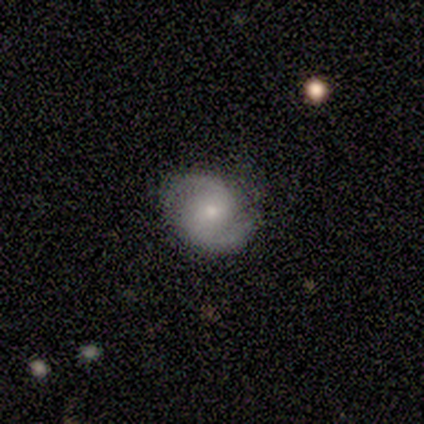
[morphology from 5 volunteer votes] smooth-or-featured: featured or disk: 100% | smooth: 0% | star or artifact: 0%
  disk-edge-on: no: 100% | yes: 0%
    bar: weak: 40% (tied) | no: 40% (tied) | strong: 20%
    has-spiral-arms: yes: 100% | no: 0%
      spiral-winding: medium: 80% | tight: 20% | loose: 0%
      spiral-arm-count: 2: 100% | 1: 0% | 3: 0% | 4: 0% | more than 4: 0% | can't tell: 0%
    bulge-size: small: 80% | moderate: 20% | dominant: 0% | large: 0% | none: 0%
  merging: none: 100% | minor disturbance: 0% | major disturbance: 0% | merger: 0%